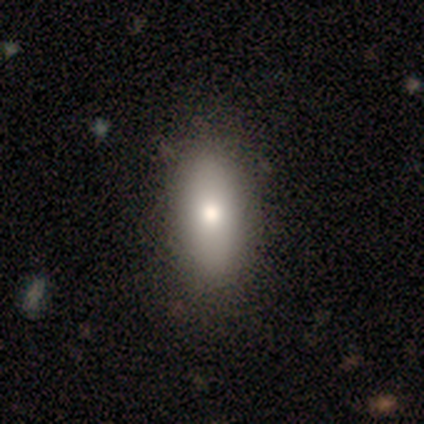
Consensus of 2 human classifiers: smooth-or-featured: smooth: 100% | featured or disk: 0% | star or artifact: 0%
  how-rounded: in between: 100% | round: 0% | cigar-shaped: 0%
  merging: none: 100% | minor disturbance: 0% | major disturbance: 0% | merger: 0%